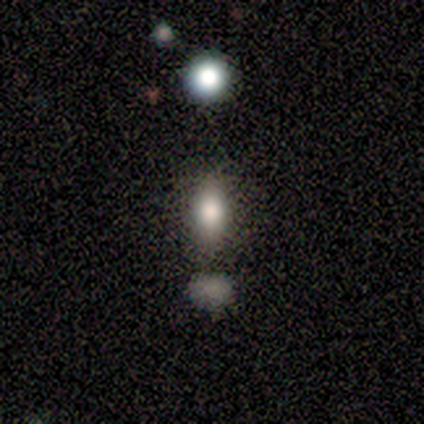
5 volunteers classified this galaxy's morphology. Smooth or featured?
  - featured or disk: 60% *
  - smooth: 20%
  - star or artifact: 20%
Edge-on disk?
  - no: 100% *
  - yes: 0%
Bar?
  - no: 67% *
  - strong: 33%
  - weak: 0%
Spiral arms?
  - no: 100% *
  - yes: 0%
Bulge size?
  - large: 67% *
  - moderate: 33%
  - dominant: 0%
  - small: 0%
  - none: 0%
Merging?
  - none: 75% *
  - minor disturbance: 25%
  - major disturbance: 0%
  - merger: 0%